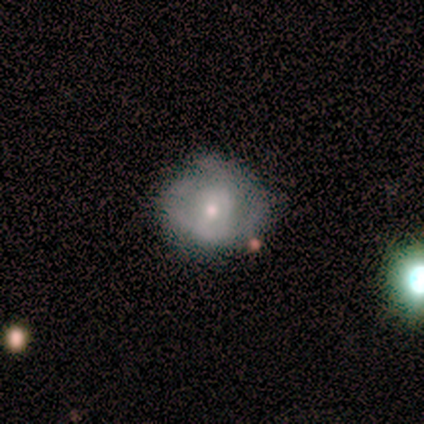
Volunteers were most divided on "spiral arm count": can't tell: 50%, 1: 25%, 3: 25%, 2: 0%, 4: 0%, more than 4: 0%. More confident: edge-on disk — no (100%); bar — no (100%); spiral arms — yes (100%); smooth or featured — featured or disk (80%); merging — none (80%); spiral winding — tight (75%); bulge size — moderate (50%).